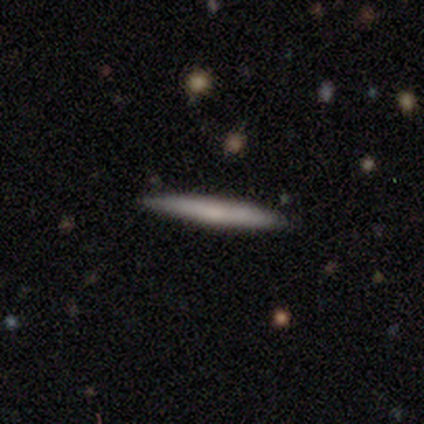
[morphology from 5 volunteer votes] This is clearly a smooth galaxy (80%). How rounded: clearly cigar-shaped (100%). Merging: clearly none (100%).